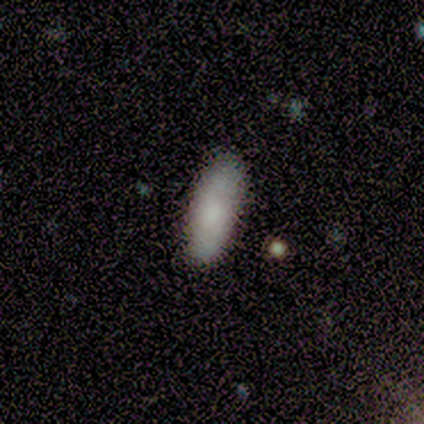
smooth_or_featured: smooth (p=1.00)
how_rounded: in between (p=0.75) [alt: cigar-shaped p=0.25]
merging: none (p=1.00)